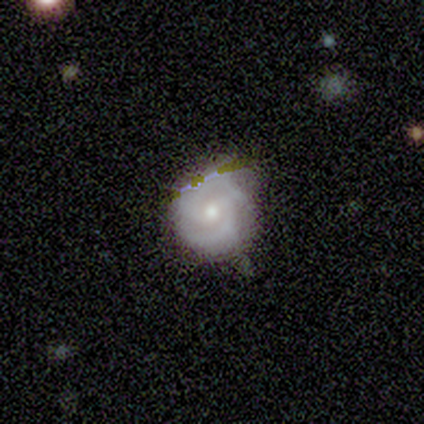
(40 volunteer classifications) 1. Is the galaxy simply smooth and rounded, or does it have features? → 82% featured or disk, 12% smooth, 5% star or artifact.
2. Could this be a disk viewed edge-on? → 100% no, 0% yes.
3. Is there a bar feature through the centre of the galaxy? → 52% no, 36% weak, 12% strong.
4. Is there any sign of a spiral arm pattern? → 97% yes, 3% no.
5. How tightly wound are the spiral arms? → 50% tight (tied), 50% medium (tied), 0% loose.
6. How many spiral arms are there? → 97% 2, 3% 3, 0% 1, 0% 4, 0% more than 4, 0% can't tell.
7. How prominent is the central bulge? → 70% moderate, 27% small, 3% none, 0% dominant, 0% large.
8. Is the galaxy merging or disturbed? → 61% none, 32% minor disturbance, 5% major disturbance, 3% merger.